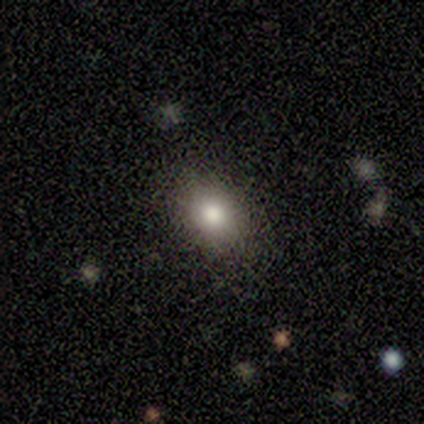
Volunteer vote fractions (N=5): Q: Smooth or featured?
A: smooth (80%); runner-up: featured or disk (20%)
Q: How rounded?
A: round (100%)
Q: Merging?
A: none (100%)